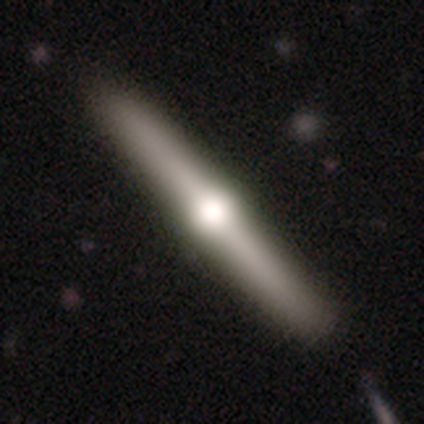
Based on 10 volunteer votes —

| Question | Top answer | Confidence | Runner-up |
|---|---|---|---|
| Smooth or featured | featured or disk | 70% | smooth (30%) |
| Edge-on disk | yes | 100% | — |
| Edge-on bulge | rounded | 100% | — |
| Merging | none | 100% | — |